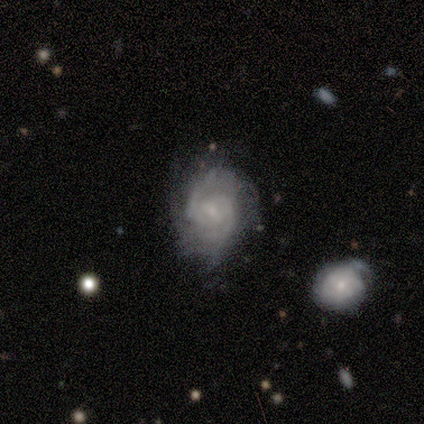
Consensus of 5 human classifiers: featured or disk 100%, smooth 0%, star or artifact 0%. Down the decision tree: edge-on disk — no (100%); bar — no (80%); spiral arms — yes (100%); spiral arm count — 2 (40%, tied with can't tell); spiral winding — tight (80%); bulge size — small (80%); merging — minor disturbance (60%).